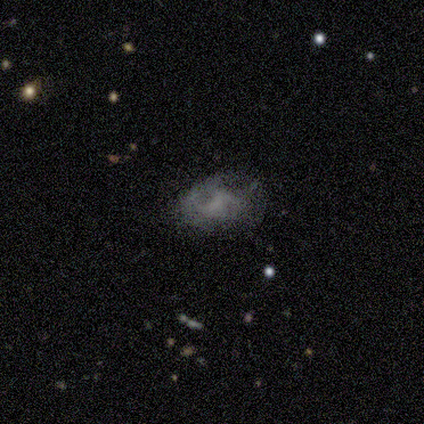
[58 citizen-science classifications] Q: Smooth or featured?
A: featured or disk (43%); runner-up: smooth (41%)
Q: Edge-on disk?
A: no (100%)
Q: Bar?
A: no (80%); runner-up: weak (16%)
Q: Spiral arms?
A: no (64%); runner-up: yes (36%)
Q: Bulge size?
A: none (76%); runner-up: moderate (12%)
Q: Merging?
A: none (57%); runner-up: major disturbance (22%)